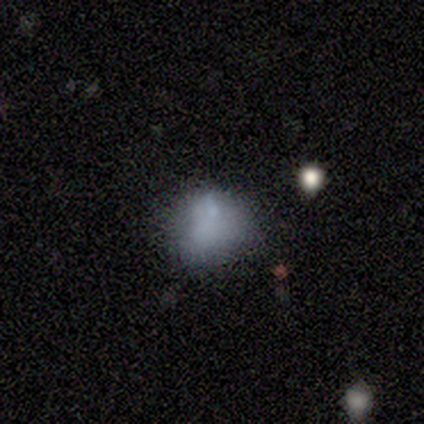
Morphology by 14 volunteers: This appears to be a smooth galaxy with no disk features (57%) that is round (75%). Merging: none (54%).